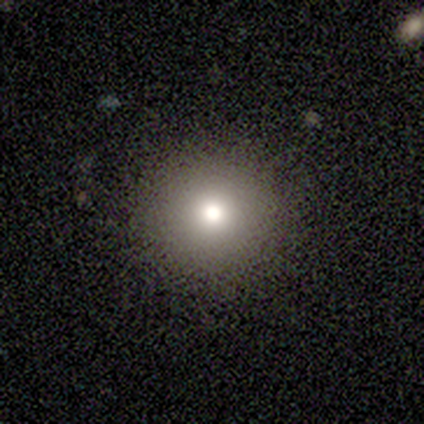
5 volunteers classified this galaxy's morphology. This appears to be a smooth galaxy with no disk features (80%) that is round (100%). Merging: none (75%).